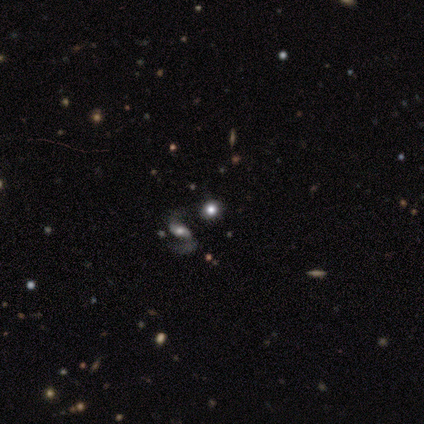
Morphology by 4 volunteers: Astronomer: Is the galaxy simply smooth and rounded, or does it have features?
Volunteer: star or artifact — 75%.